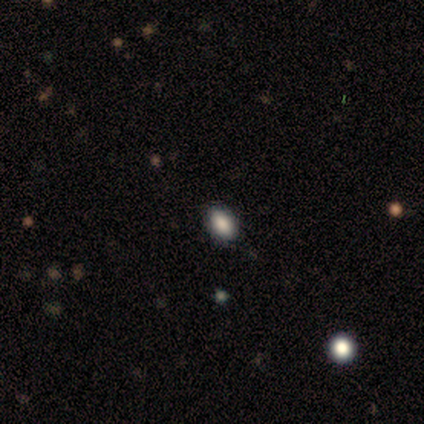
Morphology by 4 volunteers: smooth-or-featured: smooth: 75% | featured or disk: 25% | star or artifact: 0%
  how-rounded: in between: 100% | round: 0% | cigar-shaped: 0%
  merging: none: 75% | minor disturbance: 25% | major disturbance: 0% | merger: 0%